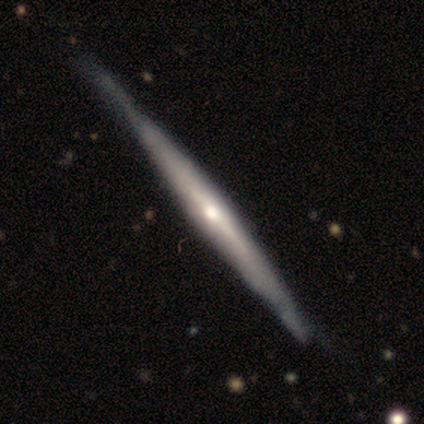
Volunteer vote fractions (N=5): smooth-or-featured: featured or disk: 80% | smooth: 20% | star or artifact: 0%
  disk-edge-on: yes: 50% (tied) | no: 50% (tied)
    edge-on-bulge: rounded: 100% | boxy: 0% | none: 0%
  merging: none: 80% | minor disturbance: 20% | major disturbance: 0% | merger: 0%